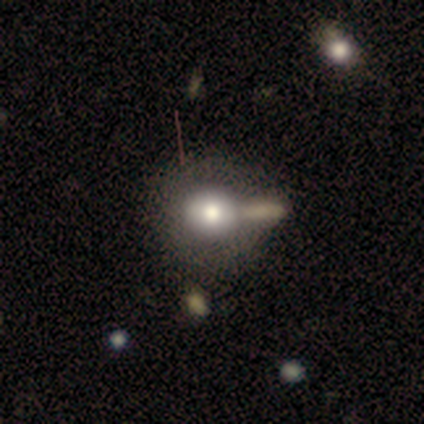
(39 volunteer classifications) Smooth or featured? 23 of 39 (59%) said smooth. How rounded? 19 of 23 (83%) said round. Merging? 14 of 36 (39%) said none.